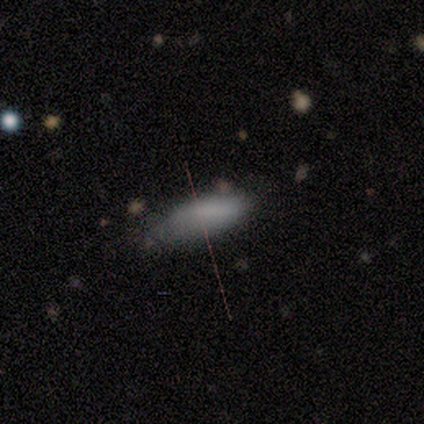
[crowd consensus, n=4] Smooth or featured? smooth (100%)
How rounded? in between (75%)
Merging? none (50%)